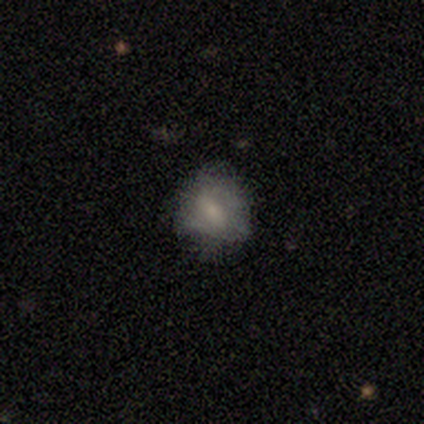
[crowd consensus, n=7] smooth_or_featured: featured or disk (p=0.57) [alt: smooth p=0.43]
disk_edge_on: no (p=1.00)
bar: no (p=0.75) [alt: strong p=0.25]
has_spiral_arms: no (p=0.75) [alt: yes p=0.25]
bulge_size: moderate (p=0.50) [tied with: small p=0.50]
merging: minor disturbance (p=0.43) [alt: none p=0.29]